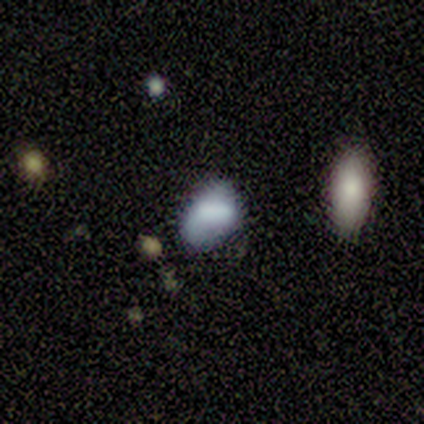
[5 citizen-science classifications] smooth_or_featured: smooth (p=0.60) [alt: featured or disk p=0.40]
how_rounded: in between (p=1.00)
merging: none (p=0.40) [tied with: minor disturbance p=0.40]